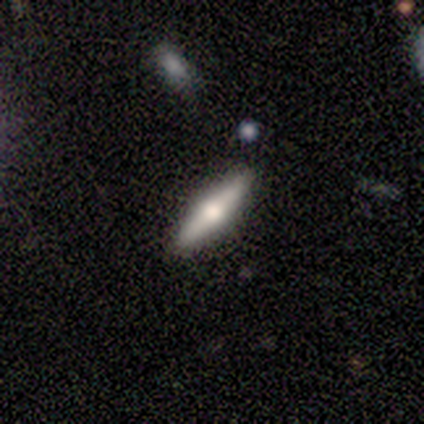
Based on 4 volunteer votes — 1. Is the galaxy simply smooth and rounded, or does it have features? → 75% smooth, 25% featured or disk, 0% star or artifact.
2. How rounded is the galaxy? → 67% cigar-shaped, 33% in between, 0% round.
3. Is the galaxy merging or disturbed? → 75% none, 25% minor disturbance, 0% major disturbance, 0% merger.